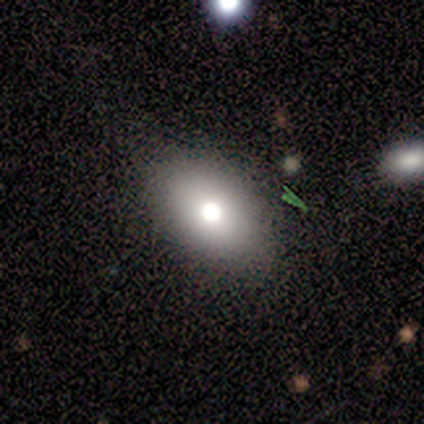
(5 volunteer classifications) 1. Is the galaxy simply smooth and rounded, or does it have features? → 60% smooth, 40% star or artifact, 0% featured or disk.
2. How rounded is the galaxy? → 100% in between, 0% round, 0% cigar-shaped.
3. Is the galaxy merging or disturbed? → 100% none, 0% minor disturbance, 0% major disturbance, 0% merger.